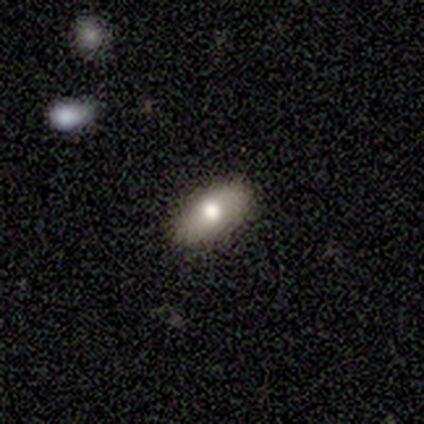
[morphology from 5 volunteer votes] This appears to be a smooth galaxy with no disk features (100%) that is in between round and cigar-shaped (100%). Merging: none (60%).